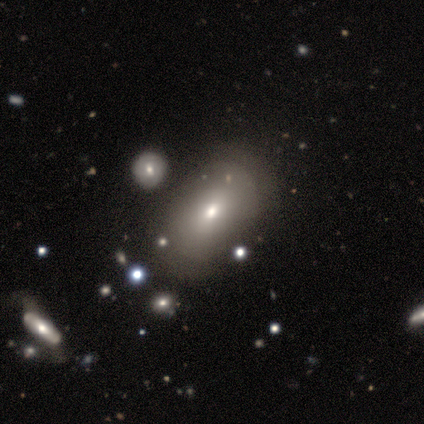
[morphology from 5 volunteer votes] A smooth galaxy with no disk features (60%) that is in between round and cigar-shaped (100%).

Vote fractions:
- Smooth or featured? smooth: 60% / featured or disk: 20% / star or artifact: 20%
- How rounded? in between: 100% / round: 0% / cigar-shaped: 0%
- Merging? none: 75% / minor disturbance: 25% / major disturbance: 0% / merger: 0%